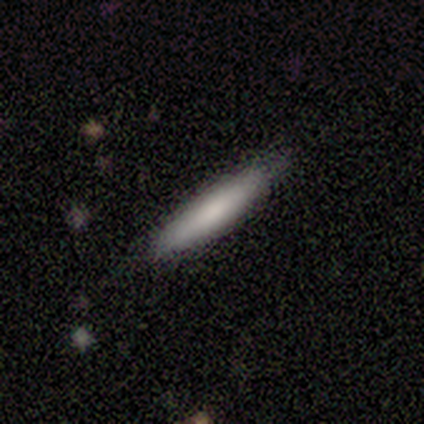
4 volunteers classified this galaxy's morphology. Smooth or featured? 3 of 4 (75%) said smooth. How rounded? 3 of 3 (100%) said cigar-shaped. Merging? 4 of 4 (100%) said none.